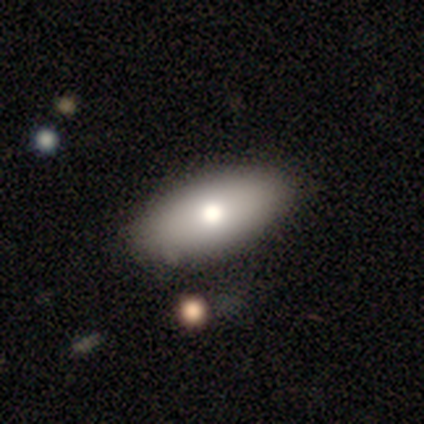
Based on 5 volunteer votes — A smooth galaxy with no disk features (80%) that is in between round and cigar-shaped (100%).

Vote fractions:
- Smooth or featured? smooth: 80% / featured or disk: 20% / star or artifact: 0%
- How rounded? in between: 100% / round: 0% / cigar-shaped: 0%
- Merging? none: 80% / major disturbance: 20% / minor disturbance: 0% / merger: 0%